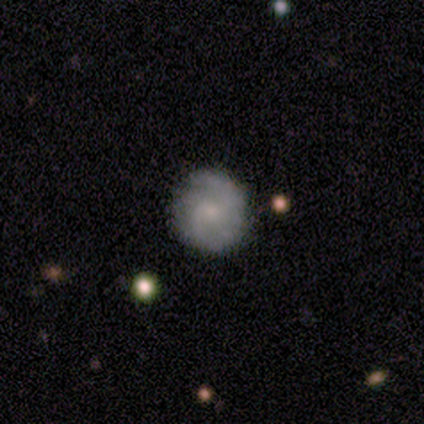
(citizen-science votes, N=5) Smooth or featured? 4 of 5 (80%) said smooth. How rounded? 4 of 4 (100%) said round. Merging? 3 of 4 (75%) said none.